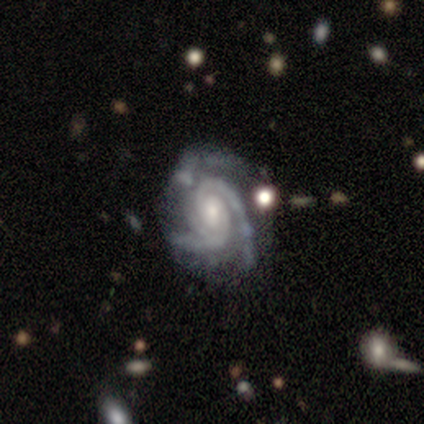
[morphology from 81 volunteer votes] Volunteers were most divided on "bar": weak: 47%, no: 45%, strong: 8%. Remaining: edge-on disk — no (97%); spiral arms — yes (97%); smooth or featured — featured or disk (96%); merging — none (72%); spiral winding — tight (68%); spiral arm count — 3 (62%); bulge size — small (49%).